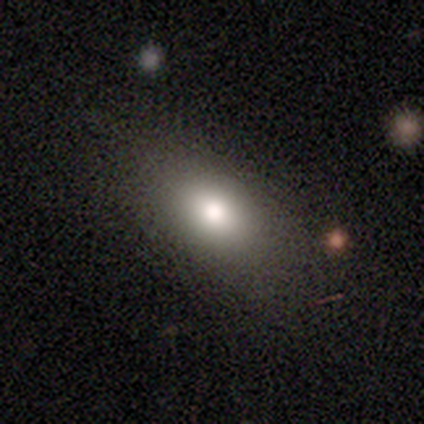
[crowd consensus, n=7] Smooth or featured? 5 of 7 (71%) said smooth. How rounded? 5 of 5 (100%) said in between. Merging? 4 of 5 (80%) said none.